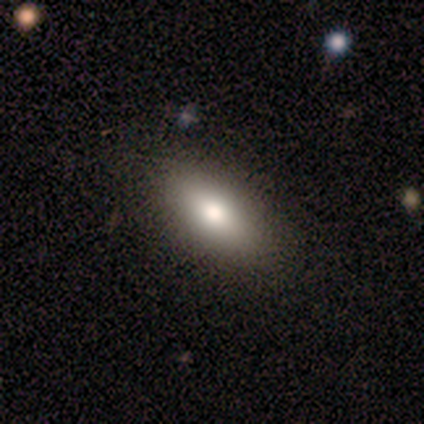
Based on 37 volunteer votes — Smooth or featured? smooth (81%)
How rounded? in between (97%)
Merging? none (59%)